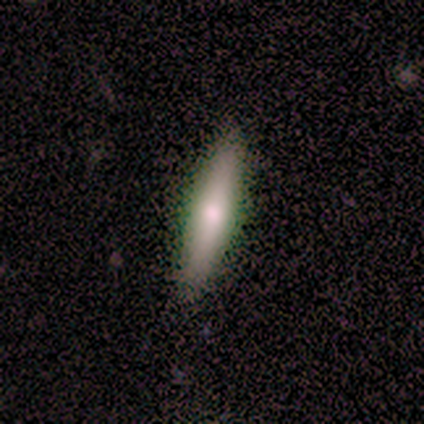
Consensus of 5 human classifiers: Smooth or featured? 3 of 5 (60%) said featured or disk. Edge-on disk? 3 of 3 (100%) said yes. Edge-on bulge? 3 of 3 (100%) said rounded. Merging? 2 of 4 (50%, tied with minor disturbance) said none.